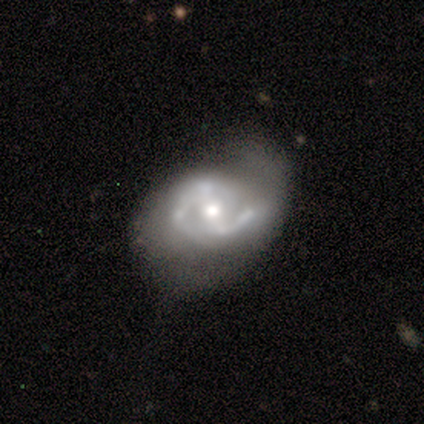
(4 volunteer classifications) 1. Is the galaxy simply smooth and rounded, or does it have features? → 75% featured or disk, 25% smooth, 0% star or artifact.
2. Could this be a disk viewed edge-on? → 100% no, 0% yes.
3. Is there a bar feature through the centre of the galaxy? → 67% weak, 33% strong, 0% no.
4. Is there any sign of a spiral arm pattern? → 100% yes, 0% no.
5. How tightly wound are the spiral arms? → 67% tight, 33% medium, 0% loose.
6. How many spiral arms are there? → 100% 2, 0% 1, 0% 3, 0% 4, 0% more than 4, 0% can't tell.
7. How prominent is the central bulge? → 100% moderate, 0% dominant, 0% large, 0% small, 0% none.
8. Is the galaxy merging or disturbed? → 50% minor disturbance, 25% none, 25% major disturbance, 0% merger.